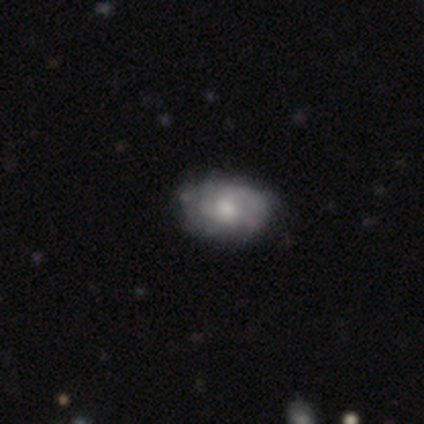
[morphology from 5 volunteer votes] type=featured or disk (80%); edge-on=no (100%); bar=weak (50%, tied with no); spiral arms=yes (75%); winding=tight (100%); arm count=can't tell (67%); bulge=small (50%); merging=none (60%).